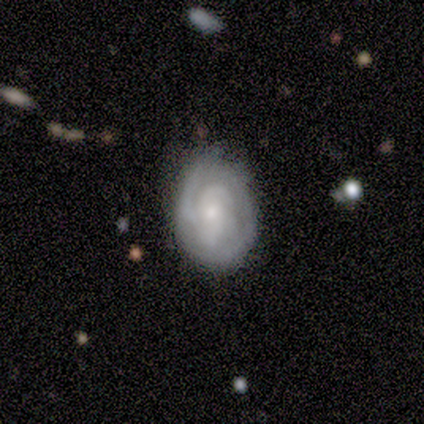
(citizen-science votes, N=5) Smooth or featured? featured or disk (100%)
Edge-on disk? no (100%)
Bar? no (80%)
Spiral arms? yes (100%)
Spiral winding? tight (60%)
Spiral arm count? 2 (60%)
Bulge size? small (80%)
Merging? none (100%)